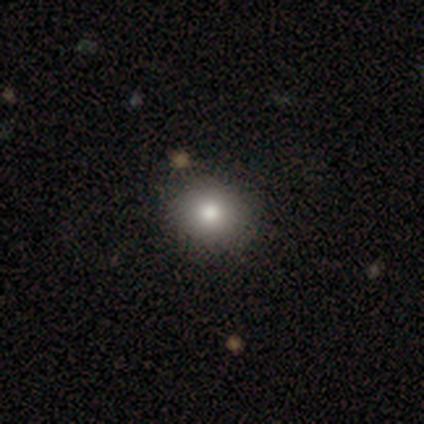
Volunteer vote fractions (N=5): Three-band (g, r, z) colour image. It shows a smooth galaxy with no disk features (100%) that is round (60%). Merging: none (60%).